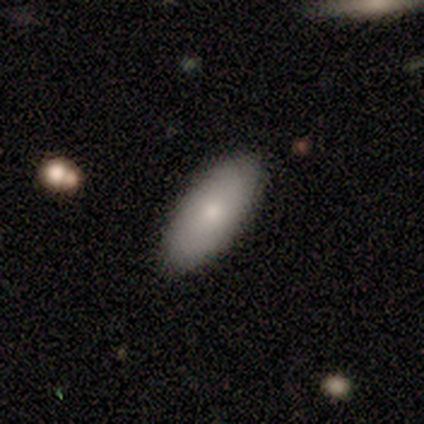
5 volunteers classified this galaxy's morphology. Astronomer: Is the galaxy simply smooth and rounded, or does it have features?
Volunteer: smooth — 100%.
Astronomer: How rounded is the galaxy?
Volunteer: in between — 100%.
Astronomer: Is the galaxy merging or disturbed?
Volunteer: none — 100%.